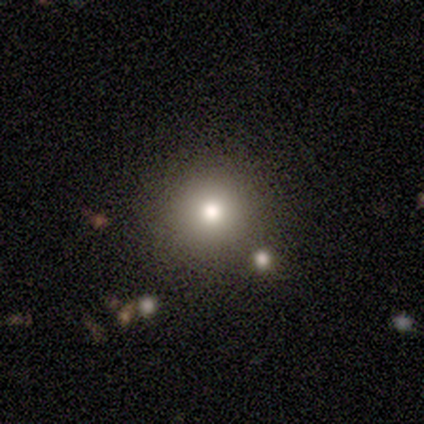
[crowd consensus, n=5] star or artifact 60%, smooth 40%, featured or disk 0%.